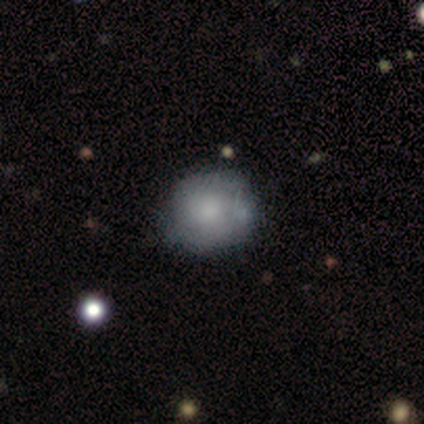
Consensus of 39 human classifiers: smooth_or_featured: smooth (p=0.72) [alt: featured or disk p=0.26]
how_rounded: round (p=0.96) [alt: in between p=0.04]
merging: none (p=0.50) [alt: minor disturbance p=0.08]